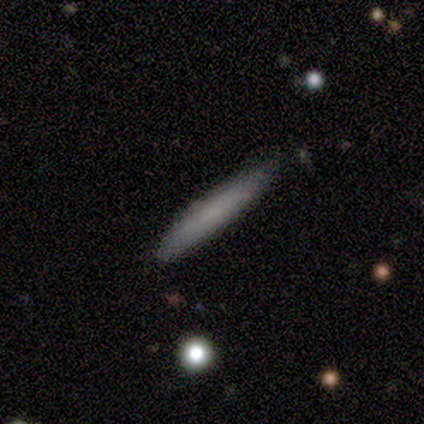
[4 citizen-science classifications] Smooth or featured? 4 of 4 (100%) said smooth. How rounded? 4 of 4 (100%) said cigar-shaped. Merging? 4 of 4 (100%) said none.